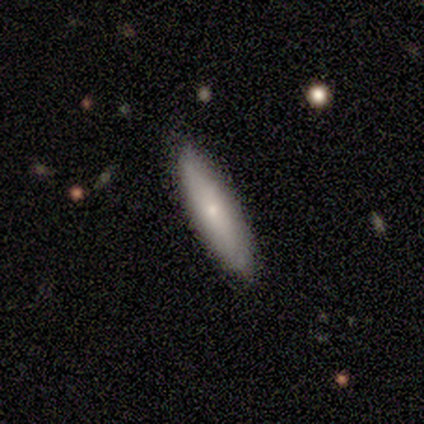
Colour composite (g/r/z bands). It shows a smooth galaxy with no disk features (75%) that is cigar-shaped (100%). Merging: none (100%).